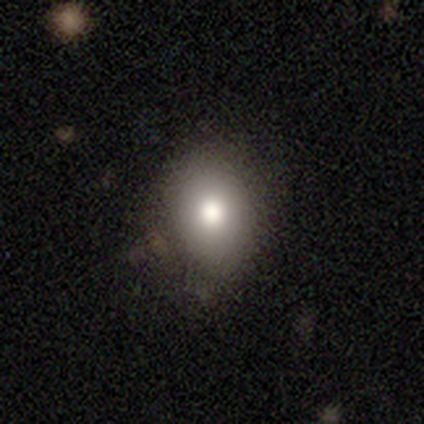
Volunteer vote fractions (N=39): Smooth or featured? smooth (85%)
How rounded? in between (55%)
Merging? none (81%)